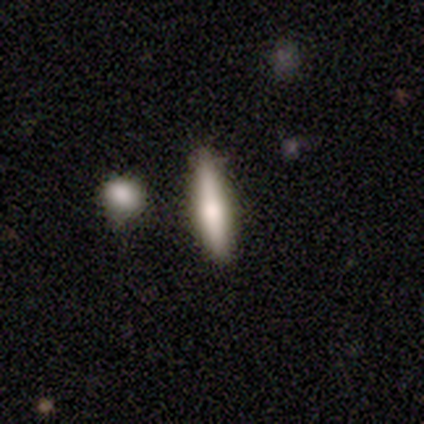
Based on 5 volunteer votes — Smooth or featured?
  - smooth: 60% *
  - featured or disk: 40%
  - star or artifact: 0%
How rounded?
  - cigar-shaped: 67% *
  - in between: 33%
  - round: 0%
Merging?
  - none: 40% * (tied)
  - minor disturbance: 40% * (tied)
  - merger: 20%
  - major disturbance: 0%